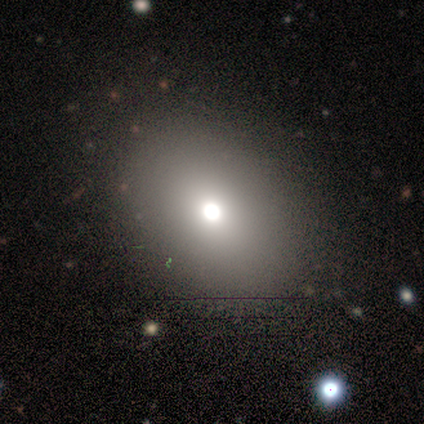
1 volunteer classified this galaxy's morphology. Smooth or featured?
  - featured or disk: 100% *
  - smooth: 0%
  - star or artifact: 0%
Edge-on disk?
  - no: 100% *
  - yes: 0%
Bar?
  - no: 100% *
  - strong: 0%
  - weak: 0%
Spiral arms?
  - no: 100% *
  - yes: 0%
Bulge size?
  - moderate: 100% *
  - dominant: 0%
  - large: 0%
  - small: 0%
  - none: 0%
Merging?
  - none: 100% *
  - minor disturbance: 0%
  - major disturbance: 0%
  - merger: 0%